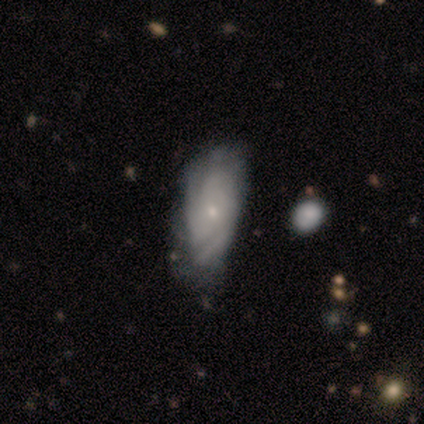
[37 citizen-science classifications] Smooth or featured? 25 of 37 (68%) said featured or disk. Edge-on disk? 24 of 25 (96%) said no. Bar? 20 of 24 (83%) said no. Spiral arms? 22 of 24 (92%) said yes. Spiral winding? 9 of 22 (41%, tied with medium) said tight. Spiral arm count? 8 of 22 (36%) said can't tell. Bulge size? 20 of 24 (83%) said small. Merging? 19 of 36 (53%) said none.